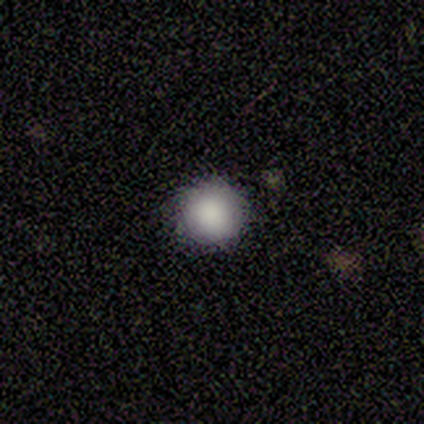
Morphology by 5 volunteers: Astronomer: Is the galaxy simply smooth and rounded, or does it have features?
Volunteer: smooth — 80%.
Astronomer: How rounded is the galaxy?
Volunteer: round — 100%.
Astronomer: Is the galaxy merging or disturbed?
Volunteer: none — 100%.